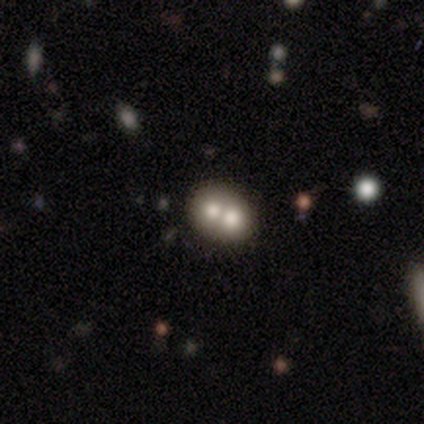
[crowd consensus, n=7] This is possibly a smooth galaxy (57%). How rounded: likely in between (75%). Merging: clearly merger (100%).